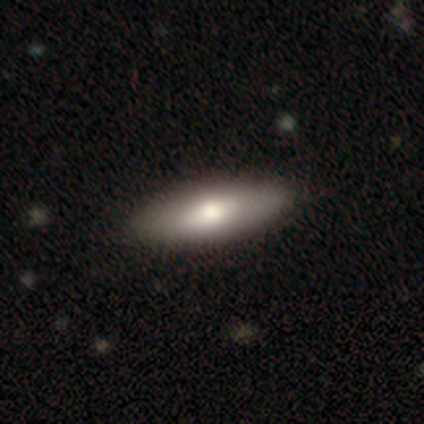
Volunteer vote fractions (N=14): Smooth or featured?
  - smooth: 71% *
  - featured or disk: 29%
  - star or artifact: 0%
How rounded?
  - in between: 60% *
  - cigar-shaped: 40%
  - round: 0%
Merging?
  - none: 100% *
  - minor disturbance: 0%
  - major disturbance: 0%
  - merger: 0%